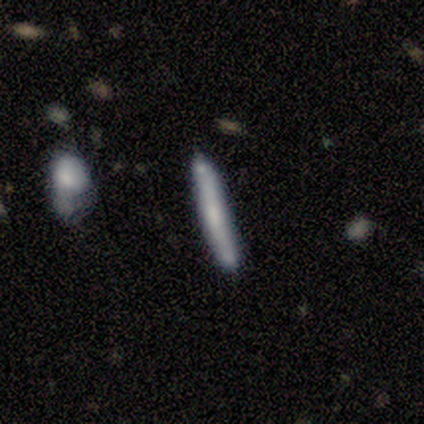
Smooth or featured: featured or disk — 60% (smooth — 40%)
Edge-on disk: yes — 100%
Edge-on bulge: none — 67% (boxy — 33%)
Merging: minor disturbance — 40% (tied with major disturbance — 40%)